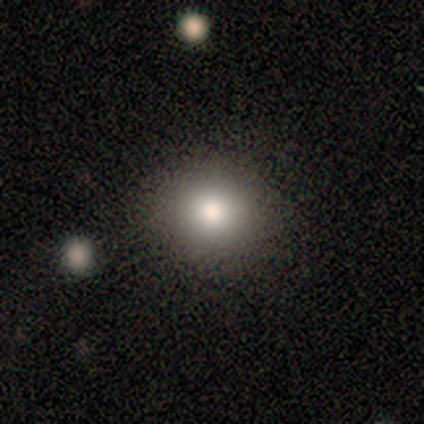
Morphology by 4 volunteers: smooth_or_featured: smooth (p=0.75) [alt: featured or disk p=0.25]
how_rounded: round (p=0.67) [alt: in between p=0.33]
merging: none (p=1.00)